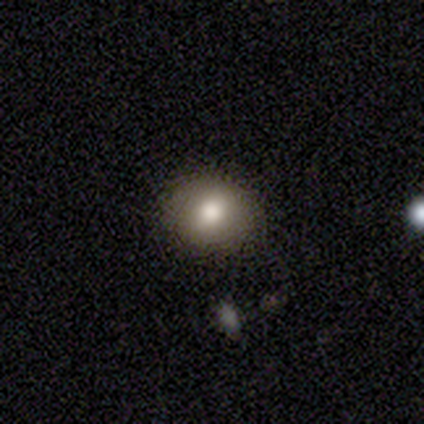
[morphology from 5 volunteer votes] Smooth or featured? 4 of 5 (80%) said smooth. How rounded? 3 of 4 (75%) said in between. Merging? 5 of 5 (100%) said none.